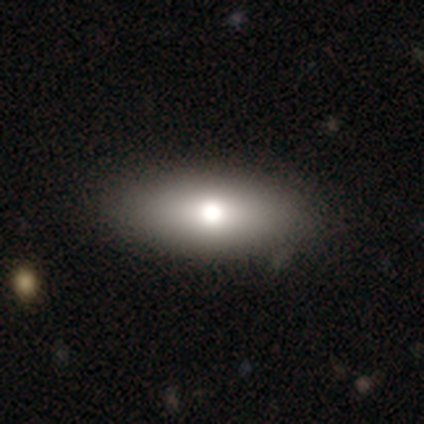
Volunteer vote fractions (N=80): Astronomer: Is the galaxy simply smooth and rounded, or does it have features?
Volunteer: smooth — 85%.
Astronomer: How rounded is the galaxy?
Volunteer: in between — 88%.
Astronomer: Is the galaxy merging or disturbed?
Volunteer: none — 39%.